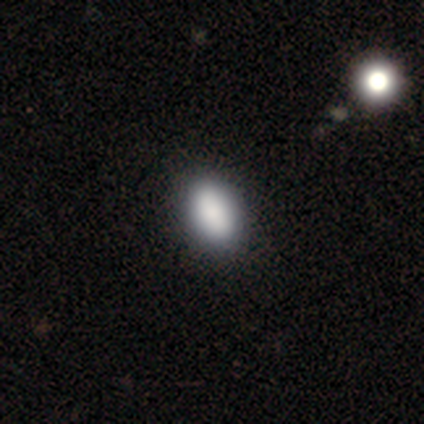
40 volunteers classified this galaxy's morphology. smooth 92%, star or artifact 5%, featured or disk 2%. Down the decision tree: how rounded — in between (81%); merging — none (47%).